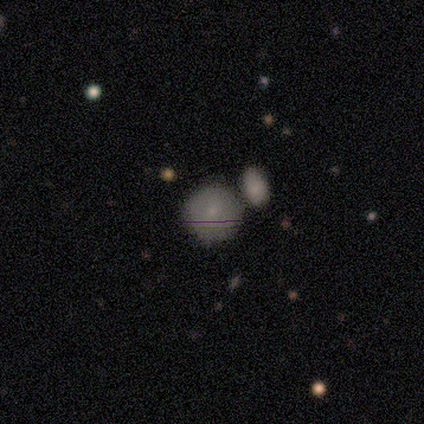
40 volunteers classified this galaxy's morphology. smooth 78%, featured or disk 12%, star or artifact 10%. Down the decision tree: how rounded — round (90%); merging — merger (47%).